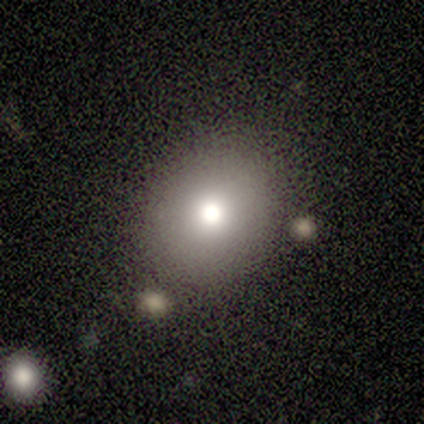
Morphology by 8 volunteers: Overall: smooth (62%; star or artifact 38%). How rounded: round (60%; in between 40%). Merging: none (80%).